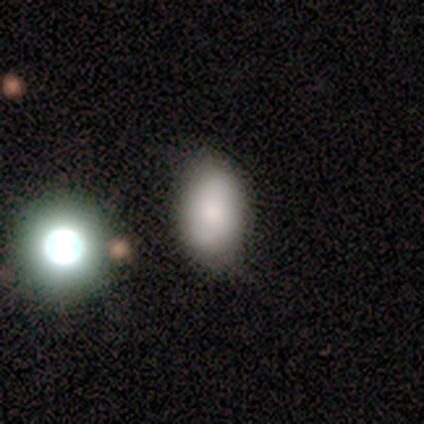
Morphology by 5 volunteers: Overall: smooth (40%, tied with star or artifact). How rounded: in between (100%). Merging: none (67%; minor disturbance 33%).